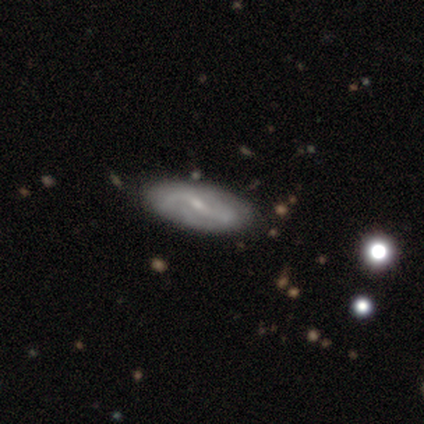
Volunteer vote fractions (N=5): Smooth or featured?
  - featured or disk: 80% *
  - star or artifact: 20%
  - smooth: 0%
Edge-on disk?
  - no: 100% *
  - yes: 0%
Bar?
  - weak: 100% *
  - strong: 0%
  - no: 0%
Spiral arms?
  - yes: 100% *
  - no: 0%
Spiral winding?
  - loose: 75% *
  - medium: 25%
  - tight: 0%
Spiral arm count?
  - 2: 100% *
  - 1: 0%
  - 3: 0%
  - 4: 0%
  - more than 4: 0%
  - can't tell: 0%
Bulge size?
  - small: 100% *
  - dominant: 0%
  - large: 0%
  - moderate: 0%
  - none: 0%
Merging?
  - none: 75% *
  - minor disturbance: 25%
  - major disturbance: 0%
  - merger: 0%